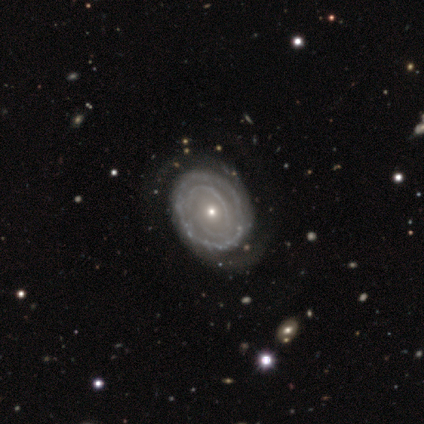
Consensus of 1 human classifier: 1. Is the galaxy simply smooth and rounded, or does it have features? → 100% featured or disk, 0% smooth, 0% star or artifact.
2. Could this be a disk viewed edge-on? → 100% no, 0% yes.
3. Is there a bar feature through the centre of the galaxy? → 100% no, 0% strong, 0% weak.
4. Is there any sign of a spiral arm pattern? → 100% yes, 0% no.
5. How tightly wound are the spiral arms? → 100% tight, 0% medium, 0% loose.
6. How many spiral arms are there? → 100% 2, 0% 1, 0% 3, 0% 4, 0% more than 4, 0% can't tell.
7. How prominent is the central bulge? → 100% small, 0% dominant, 0% large, 0% moderate, 0% none.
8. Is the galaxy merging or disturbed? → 100% none, 0% minor disturbance, 0% major disturbance, 0% merger.